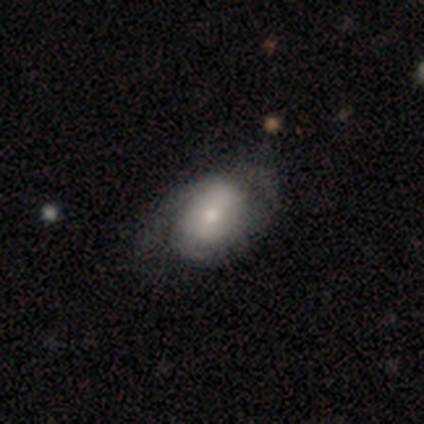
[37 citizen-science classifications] featured or disk 62%, smooth 35%, star or artifact 3%. Down the decision tree: edge-on disk — no (100%); bar — no (43%); spiral arms — yes (87%); spiral arm count — 2 (55%); spiral winding — medium (50%); bulge size — moderate (52%); merging — none (36%).